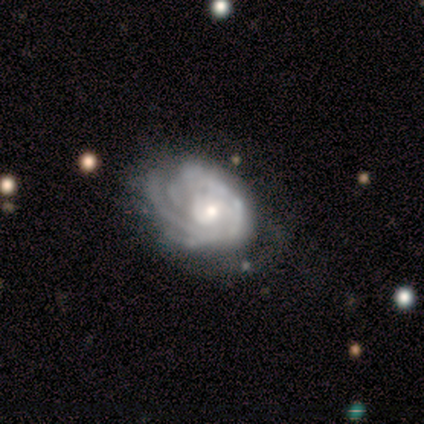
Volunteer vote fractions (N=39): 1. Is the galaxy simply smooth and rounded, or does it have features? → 85% featured or disk, 13% smooth, 3% star or artifact.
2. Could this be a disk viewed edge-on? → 97% no, 3% yes.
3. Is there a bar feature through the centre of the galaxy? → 84% no, 9% weak, 6% strong.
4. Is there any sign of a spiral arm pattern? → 91% yes, 9% no.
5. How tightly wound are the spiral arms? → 79% tight, 14% medium, 7% loose.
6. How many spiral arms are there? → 52% can't tell, 17% 2, 14% 3, 10% 4, 3% 1, 3% more than 4.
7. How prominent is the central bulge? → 47% moderate (tied), 47% small (tied), 6% large, 0% dominant, 0% none.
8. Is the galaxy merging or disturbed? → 53% none, 21% minor disturbance, 21% major disturbance, 5% merger.